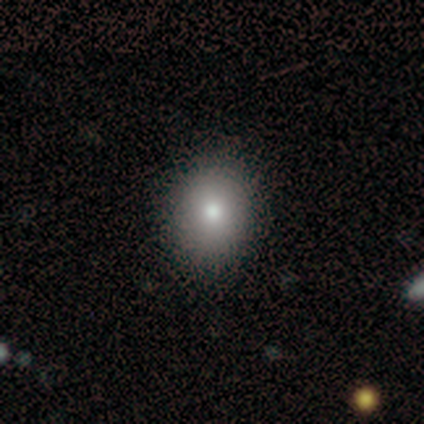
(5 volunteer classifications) Morphology: type=smooth (60%); roundness=round (100%); merging=none (100%).